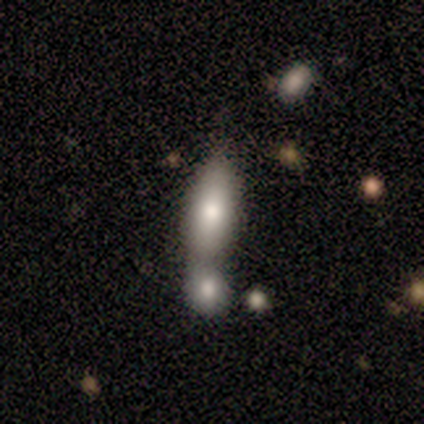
Morphology: type=smooth (63%); roundness=in between (75%); merging=merger (63%).